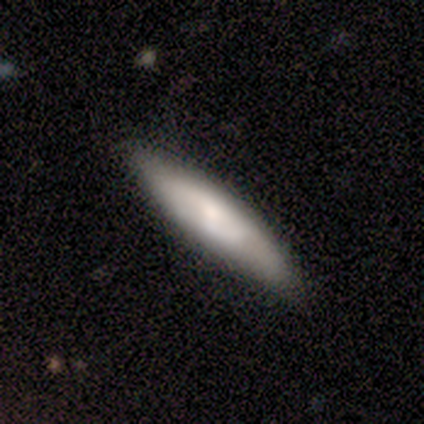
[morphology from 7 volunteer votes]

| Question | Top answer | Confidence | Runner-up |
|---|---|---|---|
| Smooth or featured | smooth | 86% | featured or disk (14%) |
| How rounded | cigar-shaped | 83% | in between (17%) |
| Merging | none | 100% | — |